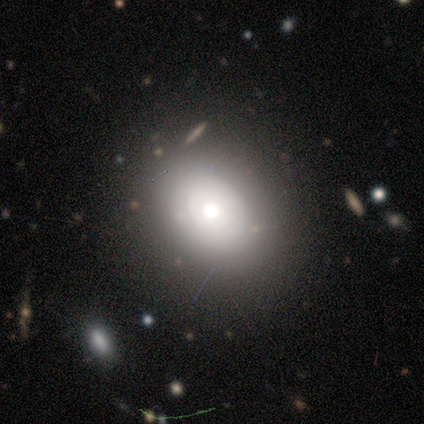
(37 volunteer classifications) Overall: smooth (62%; featured or disk 35%). How rounded: in between (65%; round 35%). Merging: none (83%).